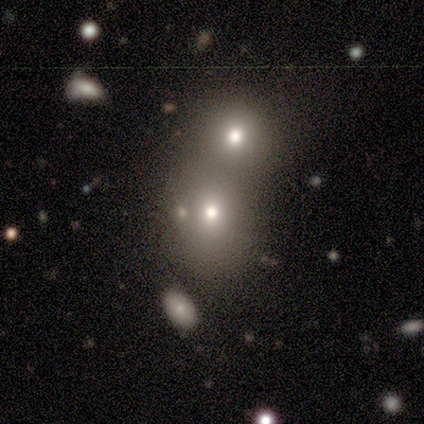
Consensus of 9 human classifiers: Smooth or featured? 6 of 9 (67%) said smooth. How rounded? 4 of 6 (67%) said round. Merging? 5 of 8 (62%) said merger.